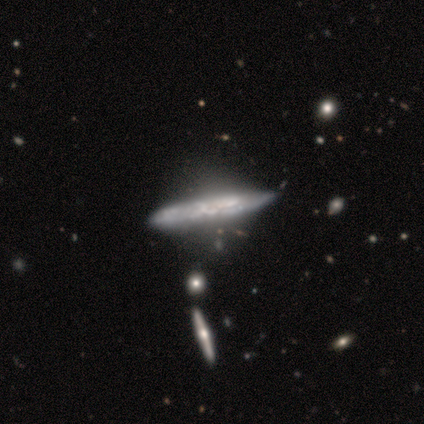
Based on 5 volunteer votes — This appears to be a featured or disk galaxy (100%) viewed edge-on (100%) with no central bulge (80%). Merging: none (40%, tied with minor disturbance).